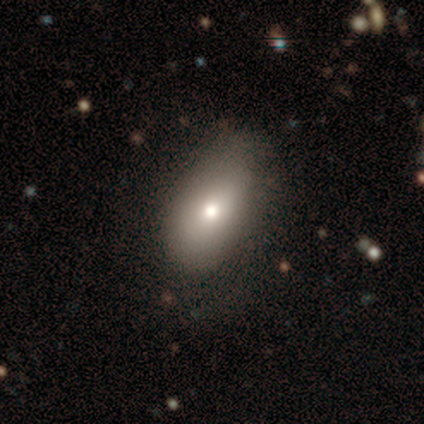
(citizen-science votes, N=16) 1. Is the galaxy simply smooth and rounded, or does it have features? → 88% smooth, 6% featured or disk, 6% star or artifact.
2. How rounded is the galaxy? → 93% in between, 7% round, 0% cigar-shaped.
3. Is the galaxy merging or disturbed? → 60% none, 40% minor disturbance, 0% major disturbance, 0% merger.